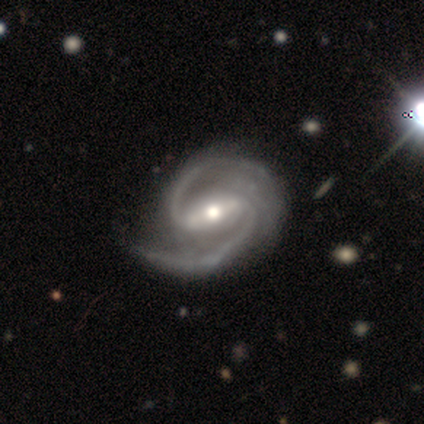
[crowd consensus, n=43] Q: Smooth or featured?
A: featured or disk (95%); runner-up: star or artifact (5%)
Q: Edge-on disk?
A: no (98%); runner-up: yes (2%)
Q: Bar?
A: strong (75%); runner-up: weak (18%)
Q: Spiral arms?
A: yes (98%); runner-up: no (2%)
Q: Spiral winding?
A: medium (67%); runner-up: tight (21%)
Q: Spiral arm count?
A: 2 (69%); runner-up: 3 (28%)
Q: Bulge size?
A: moderate (65%); runner-up: large (28%)
Q: Merging?
A: none (68%); runner-up: minor disturbance (24%)